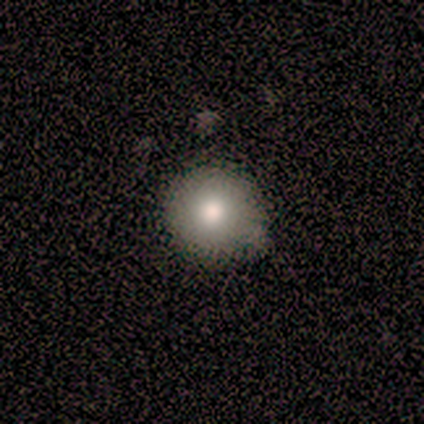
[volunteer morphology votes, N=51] Q: Smooth or featured?
A: smooth (88%); runner-up: featured or disk (12%)
Q: How rounded?
A: round (98%); runner-up: in between (2%)
Q: Merging?
A: none (69%); runner-up: minor disturbance (27%)